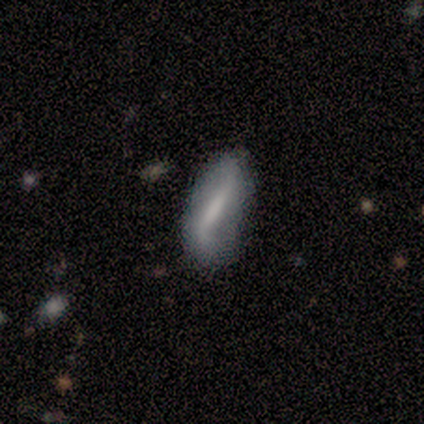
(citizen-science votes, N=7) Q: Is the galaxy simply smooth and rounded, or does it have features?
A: smooth — 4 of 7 (57%).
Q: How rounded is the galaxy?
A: cigar-shaped — 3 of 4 (75%).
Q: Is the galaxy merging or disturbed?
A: none — 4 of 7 (57%).